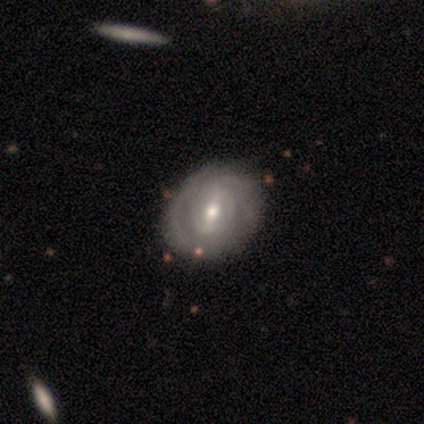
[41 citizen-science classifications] Q: Smooth or featured?
A: featured or disk (88%); runner-up: smooth (12%)
Q: Edge-on disk?
A: no (100%)
Q: Bar?
A: weak (50%); runner-up: strong (39%)
Q: Spiral arms?
A: yes (67%); runner-up: no (33%)
Q: Spiral winding?
A: tight (62%); runner-up: medium (33%)
Q: Spiral arm count?
A: 2 (54%); runner-up: can't tell (33%)
Q: Bulge size?
A: moderate (75%); runner-up: small (22%)
Q: Merging?
A: none (63%); runner-up: minor disturbance (34%)